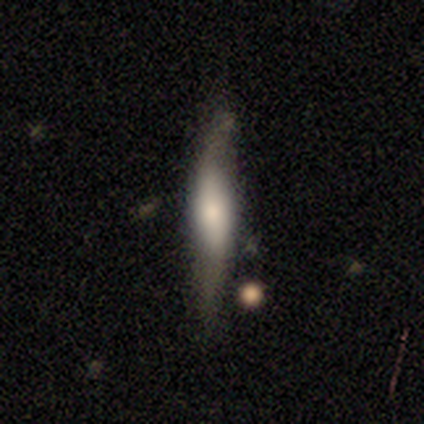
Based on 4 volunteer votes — Smooth or featured? smooth (75%)
How rounded? cigar-shaped (100%)
Merging? none (100%)